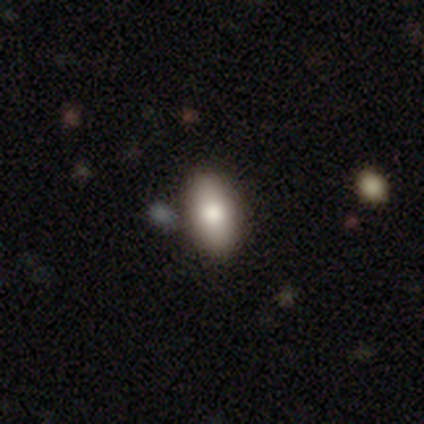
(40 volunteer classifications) A smooth galaxy with no disk features (80%) that is in between round and cigar-shaped (84%).

Vote fractions:
- Smooth or featured? smooth: 80% / featured or disk: 10% / star or artifact: 10%
- How rounded? in between: 84% / cigar-shaped: 9% / round: 6%
- Merging? none: 89% / minor disturbance: 6% / merger: 6% / major disturbance: 0%